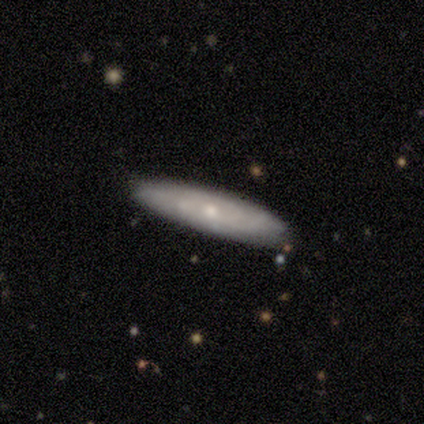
Smooth or featured? 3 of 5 (60%) said featured or disk. Edge-on disk? 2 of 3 (67%) said no. Bar? 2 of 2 (100%) said no. Spiral arms? 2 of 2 (100%) said yes. Spiral winding? 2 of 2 (100%) said tight. Spiral arm count? 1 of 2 (50%, tied with can't tell) said 2. Bulge size? 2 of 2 (100%) said moderate. Merging? 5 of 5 (100%) said none.